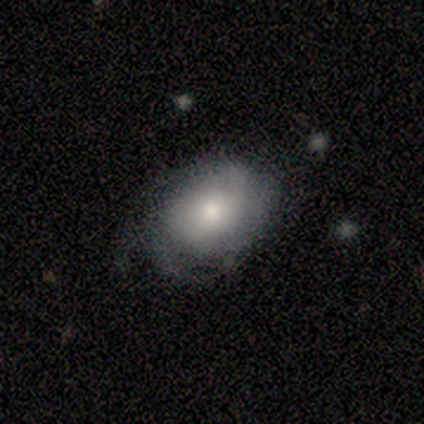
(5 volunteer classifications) Smooth or featured? smooth (60%)
How rounded? in between (67%)
Merging? none (40%, tied with minor disturbance)